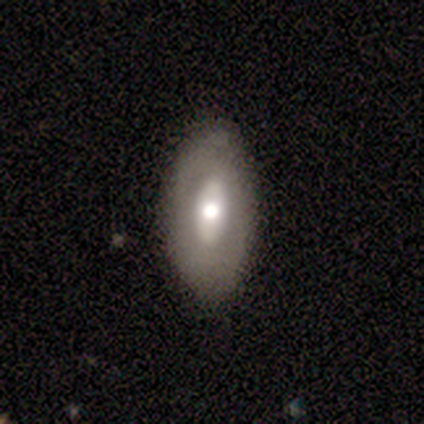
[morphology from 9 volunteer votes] This is likely a smooth galaxy (67%). How rounded: clearly in between (100%). Merging: likely none (75%).